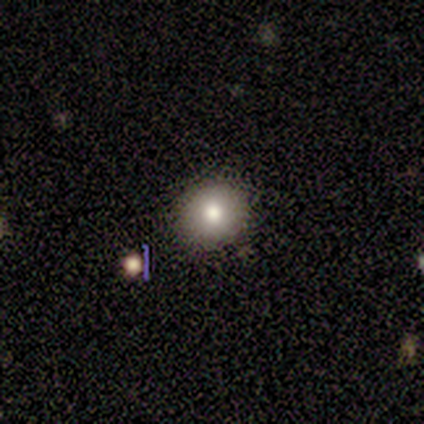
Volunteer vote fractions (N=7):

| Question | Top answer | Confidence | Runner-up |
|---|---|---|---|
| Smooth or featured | smooth | 86% | featured or disk (14%) |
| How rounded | round | 100% | — |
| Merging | none | 86% | minor disturbance (14%) |